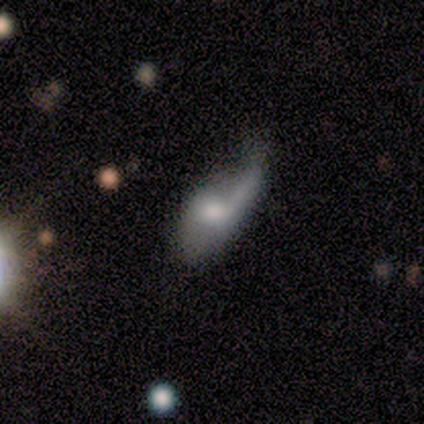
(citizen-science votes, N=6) Q: Smooth or featured?
A: smooth (67%); runner-up: featured or disk (33%)
Q: How rounded?
A: in between (100%)
Q: Merging?
A: none (33%); tied with: minor disturbance (33%)